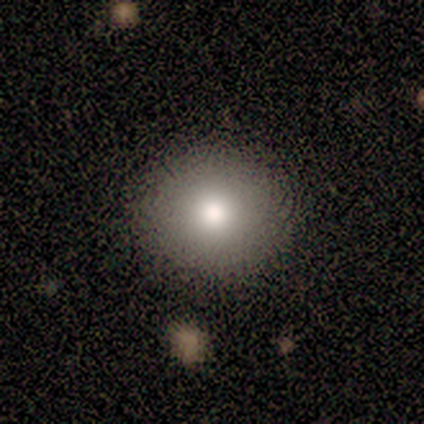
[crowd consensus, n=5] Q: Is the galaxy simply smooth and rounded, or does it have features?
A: smooth — 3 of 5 (60%).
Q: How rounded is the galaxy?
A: round — 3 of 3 (100%).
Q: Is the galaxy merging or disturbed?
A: none — 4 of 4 (100%).